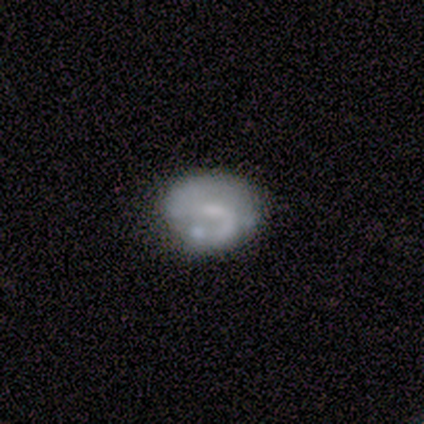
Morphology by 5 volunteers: This is clearly a featured or disk galaxy (80%). It is clearly not viewed edge-on (100%). Bar: likely weak (75%). Spiral arm pattern: possibly yes (50%, tied with no). Spiral arm count: clearly 2 (100%). Spiral winding: clearly medium (100%). Central bulge: likely small (75%). Merging: likely none (60%).